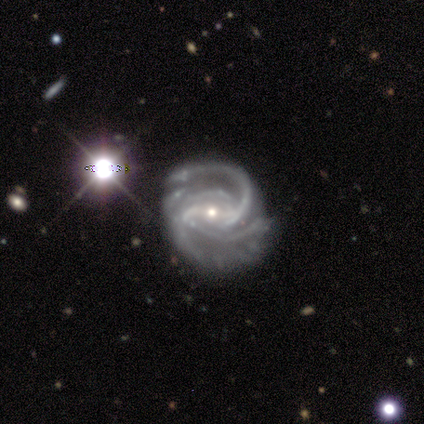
Smooth or featured?
  - featured or disk: 100% *
  - smooth: 0%
  - star or artifact: 0%
Edge-on disk?
  - no: 100% *
  - yes: 0%
Bar?
  - strong: 100% *
  - weak: 0%
  - no: 0%
Spiral arms?
  - yes: 100% *
  - no: 0%
Spiral winding?
  - medium: 60% *
  - tight: 40%
  - loose: 0%
Spiral arm count?
  - 4: 60% *
  - 3: 40%
  - 1: 0%
  - 2: 0%
  - more than 4: 0%
  - can't tell: 0%
Bulge size?
  - small: 80% *
  - moderate: 20%
  - dominant: 0%
  - large: 0%
  - none: 0%
Merging?
  - none: 80% *
  - major disturbance: 20%
  - minor disturbance: 0%
  - merger: 0%